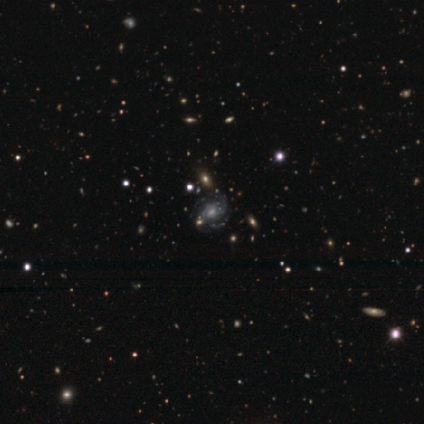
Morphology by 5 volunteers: This appears to be a featured or disk galaxy (100%) with no bar (60%), 2 (60%) medium (60%) spiral arms (100%) and a moderate central bulge (80%). Merging: none (80%).